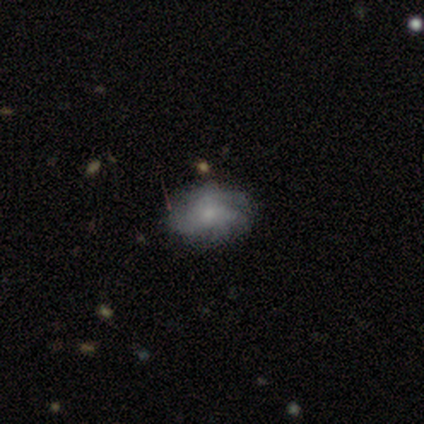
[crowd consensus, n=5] Morphology: type=smooth (80%); roundness=in between (100%); merging=none (80%).